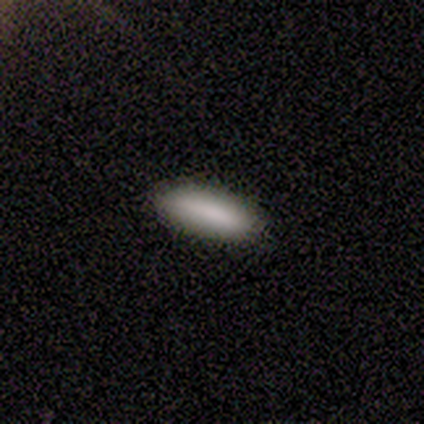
Smooth or featured: smooth — 100%
How rounded: in between — 60% (cigar-shaped — 40%)
Merging: none — 100%